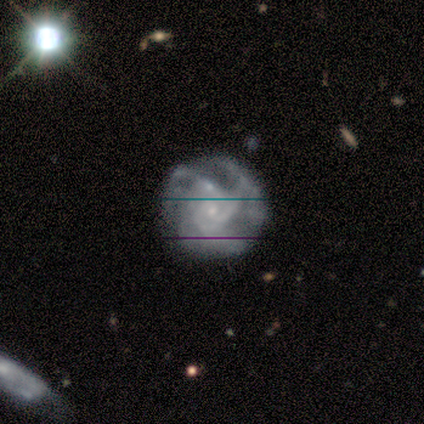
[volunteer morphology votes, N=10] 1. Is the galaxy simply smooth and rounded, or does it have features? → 90% featured or disk, 10% star or artifact, 0% smooth.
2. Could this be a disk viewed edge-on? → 89% no, 11% yes.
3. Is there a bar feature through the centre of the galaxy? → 88% no, 12% weak, 0% strong.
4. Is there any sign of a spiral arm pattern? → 100% yes, 0% no.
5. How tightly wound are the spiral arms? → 50% medium, 38% tight, 12% loose.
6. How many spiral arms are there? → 38% 3 (tied), 38% can't tell (tied), 25% 2, 0% 1, 0% 4, 0% more than 4.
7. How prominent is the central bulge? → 88% small, 12% moderate, 0% dominant, 0% large, 0% none.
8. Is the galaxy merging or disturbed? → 67% none, 22% major disturbance, 11% merger, 0% minor disturbance.